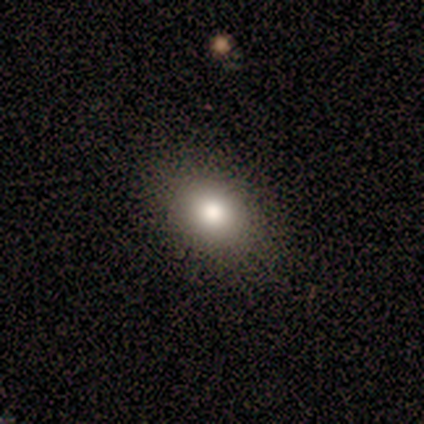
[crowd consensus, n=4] smooth 100%, featured or disk 0%, star or artifact 0%. Down the decision tree: how rounded — round (50%, tied with in between); merging — none (100%).